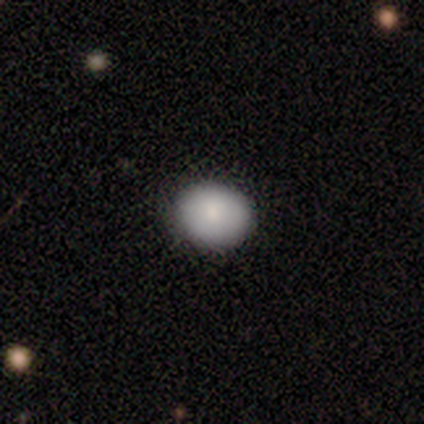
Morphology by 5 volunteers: smooth 100%, featured or disk 0%, star or artifact 0%. Down the decision tree: how rounded — round (60%); merging — none (100%).